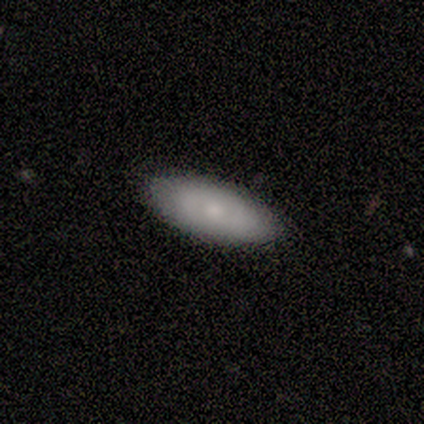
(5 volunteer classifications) Overall: smooth (80%). How rounded: in between (100%). Merging: none (60%; minor disturbance 40%).